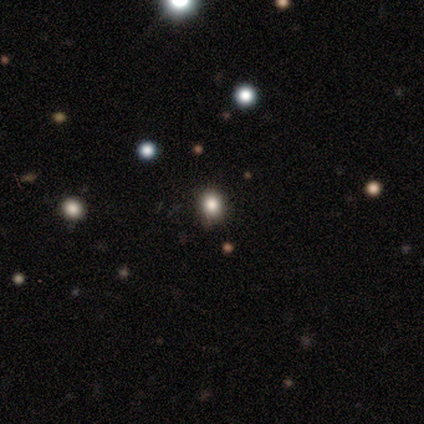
smooth 67%, star or artifact 33%, featured or disk 0%. Down the decision tree: how rounded — round (75%); merging — none (75%).